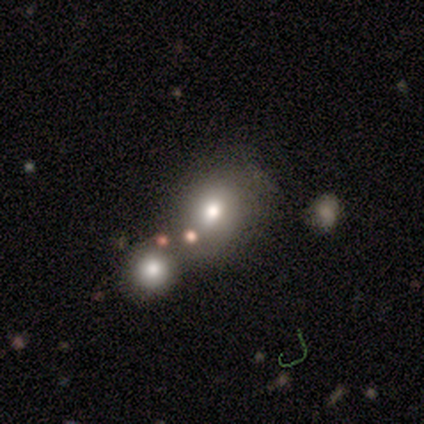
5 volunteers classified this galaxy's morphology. smooth 80%, star or artifact 20%, featured or disk 0%. Down the decision tree: how rounded — round (50%, tied with in between); merging — none (75%).